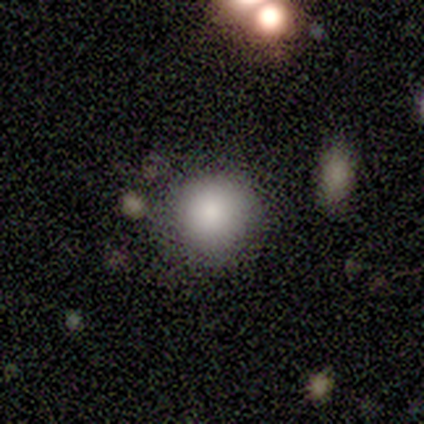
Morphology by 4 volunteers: type=smooth (75%); roundness=round (100%); merging=none (100%).